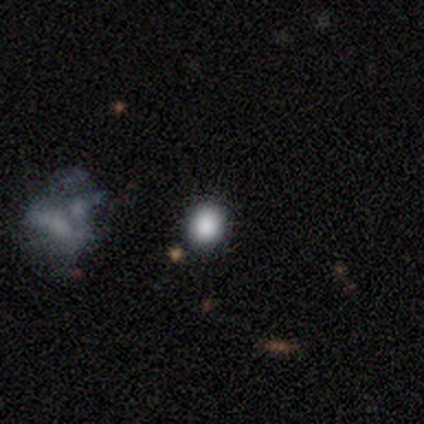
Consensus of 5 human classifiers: Q: Smooth or featured?
A: smooth (80%); runner-up: featured or disk (20%)
Q: How rounded?
A: round (100%)
Q: Merging?
A: none (40%); tied with: minor disturbance (40%)